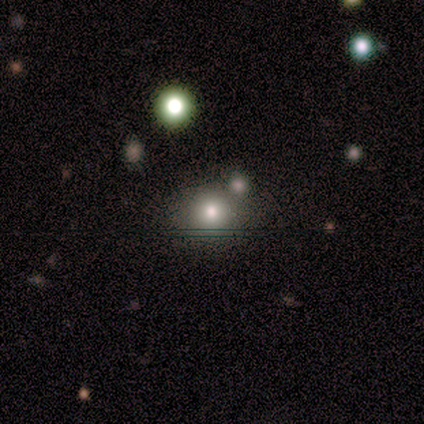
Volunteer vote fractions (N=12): smooth_or_featured: star or artifact (p=0.50) [alt: smooth p=0.42]